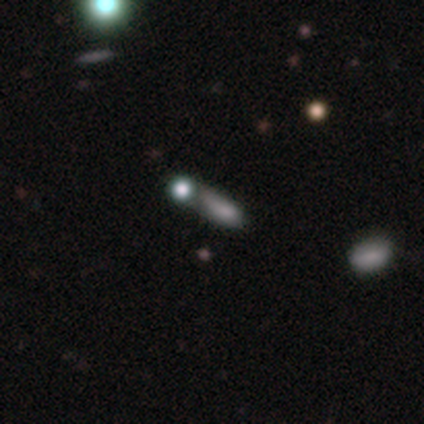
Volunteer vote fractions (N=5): Morphology: type=smooth (60%); roundness=in between (67%); merging=none (40%, tied with merger).